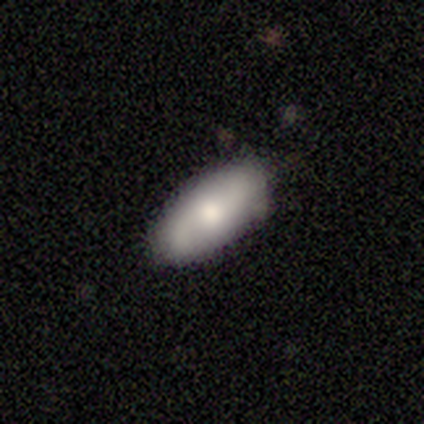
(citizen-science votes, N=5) Smooth or featured?
  - smooth: 80% *
  - featured or disk: 20%
  - star or artifact: 0%
How rounded?
  - in between: 100% *
  - round: 0%
  - cigar-shaped: 0%
Merging?
  - none: 80% *
  - minor disturbance: 20%
  - major disturbance: 0%
  - merger: 0%